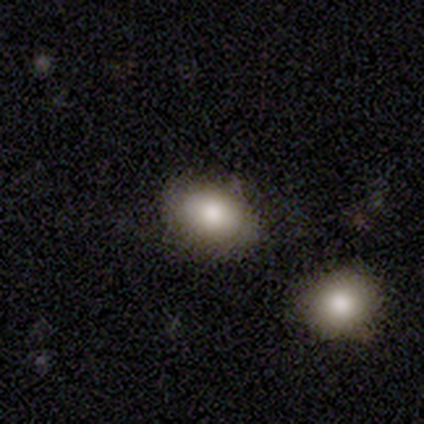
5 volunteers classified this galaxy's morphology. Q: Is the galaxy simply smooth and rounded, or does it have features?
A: smooth — 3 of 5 (60%).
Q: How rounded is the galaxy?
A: in between — 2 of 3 (67%).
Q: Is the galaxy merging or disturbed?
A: none — 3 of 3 (100%).